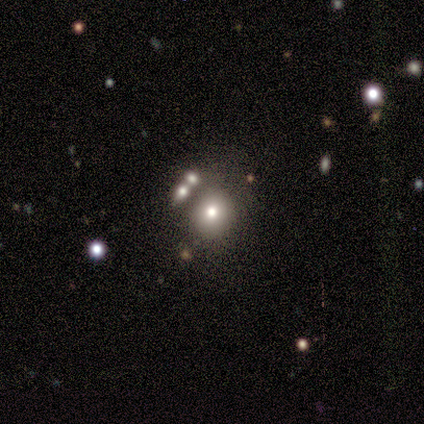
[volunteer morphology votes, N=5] Smooth or featured: smooth — 60% (featured or disk — 20%)
How rounded: round — 67% (in between — 33%)
Merging: none — 50% (tied with merger — 50%)